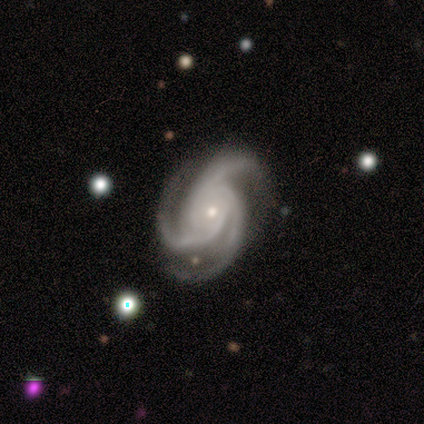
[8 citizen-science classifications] Morphology: type=featured or disk (100%); edge-on=no (100%); bar=no (75%); spiral arms=yes (100%); winding=medium (75%); arm count=3 (100%); bulge=small (100%); merging=none (88%).